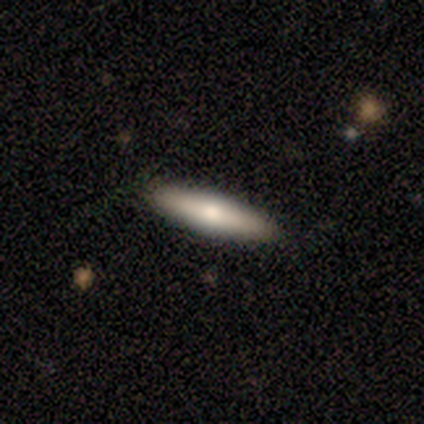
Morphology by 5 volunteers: Q: Smooth or featured?
A: smooth (60%); runner-up: featured or disk (40%)
Q: How rounded?
A: cigar-shaped (100%)
Q: Merging?
A: none (100%)